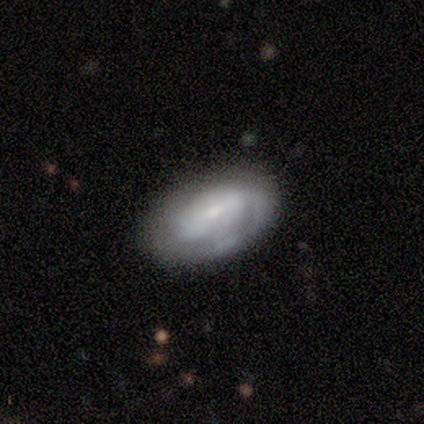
Smooth or featured? featured or disk (62%)
Edge-on disk? no (95%)
Bar? weak (59%)
Spiral arms? yes (82%)
Spiral winding? tight (59%)
Spiral arm count? can't tell (38%)
Bulge size? small (64%)
Merging? none (64%)